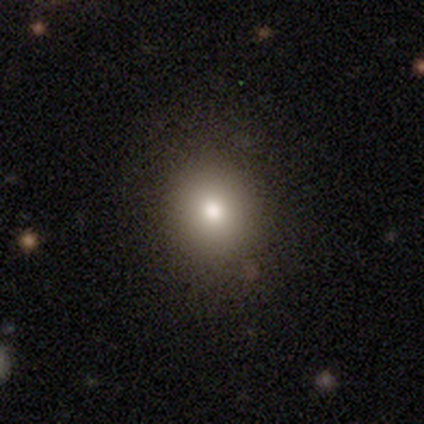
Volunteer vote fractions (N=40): smooth-or-featured: smooth: 72% | star or artifact: 22% | featured or disk: 5%
  how-rounded: round: 83% | in between: 17% | cigar-shaped: 0%
  merging: none: 84% | minor disturbance: 13% | major disturbance: 3% | merger: 0%